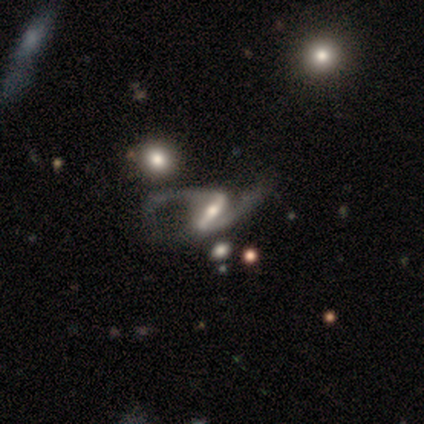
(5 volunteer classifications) Q: Smooth or featured?
A: featured or disk (100%)
Q: Edge-on disk?
A: no (100%)
Q: Bar?
A: strong (60%); runner-up: weak (20%)
Q: Spiral arms?
A: yes (100%)
Q: Spiral winding?
A: loose (80%); runner-up: medium (20%)
Q: Spiral arm count?
A: 2 (100%)
Q: Bulge size?
A: moderate (60%); runner-up: small (40%)
Q: Merging?
A: major disturbance (60%); runner-up: minor disturbance (40%)